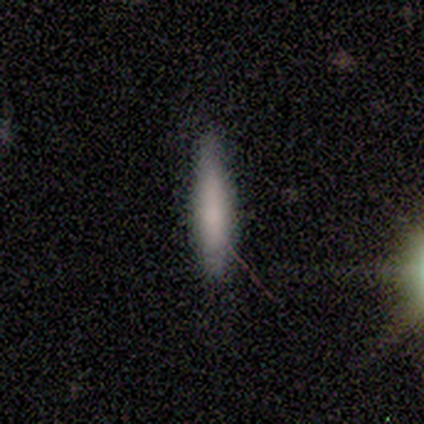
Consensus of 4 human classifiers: This appears to be a smooth galaxy with no disk features (100%) that is cigar-shaped (100%). Merging: none (75%).